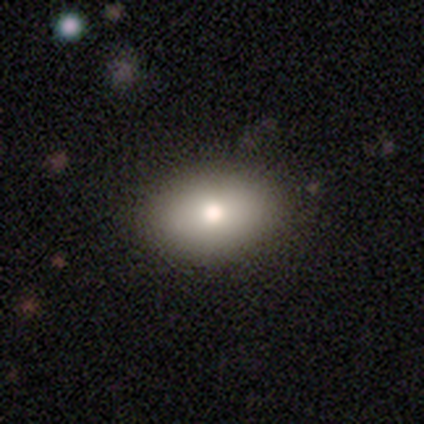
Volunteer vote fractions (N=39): Morphology: type=smooth (82%); roundness=in between (84%); merging=none (72%).